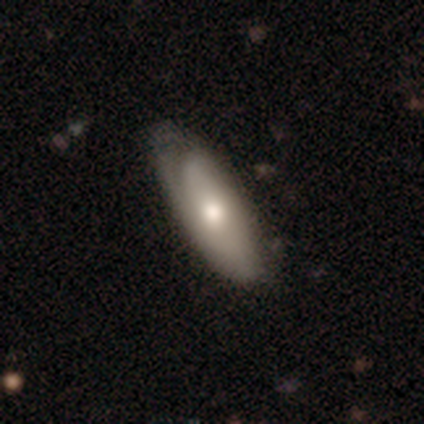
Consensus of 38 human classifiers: Smooth or featured? featured or disk (55%)
Edge-on disk? no (81%)
Bar? no (82%)
Spiral arms? no (59%)
Bulge size? moderate (59%)
Merging? none (53%)